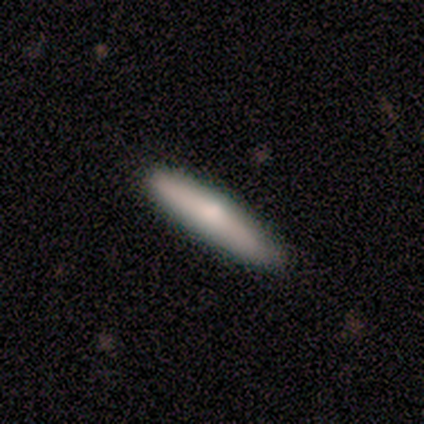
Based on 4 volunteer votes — This is clearly a smooth galaxy (100%). How rounded: clearly cigar-shaped (100%). Merging: clearly none (100%).